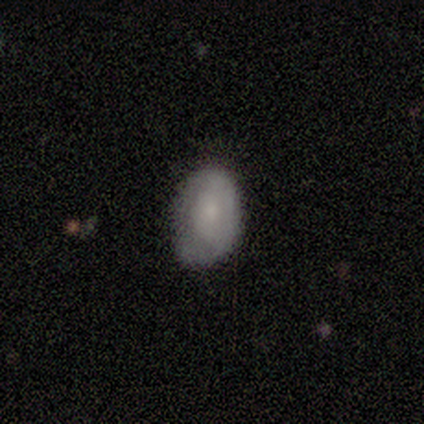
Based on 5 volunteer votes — Smooth or featured?
  - featured or disk: 60% *
  - smooth: 40%
  - star or artifact: 0%
Edge-on disk?
  - no: 100% *
  - yes: 0%
Bar?
  - no: 67% *
  - weak: 33%
  - strong: 0%
Spiral arms?
  - yes: 67% *
  - no: 33%
Spiral winding?
  - tight: 100% *
  - medium: 0%
  - loose: 0%
Spiral arm count?
  - 1: 50% * (tied)
  - can't tell: 50% * (tied)
  - 2: 0%
  - 3: 0%
  - 4: 0%
  - more than 4: 0%
Bulge size?
  - moderate: 67% *
  - small: 33%
  - dominant: 0%
  - large: 0%
  - none: 0%
Merging?
  - none: 60% *
  - minor disturbance: 40%
  - major disturbance: 0%
  - merger: 0%